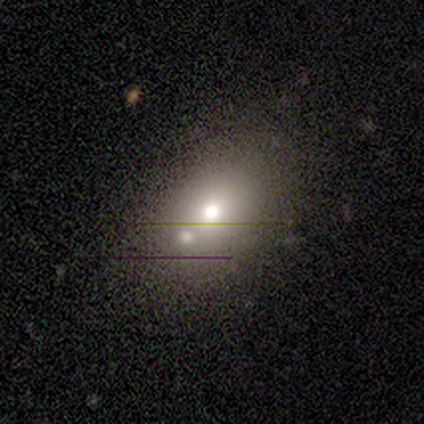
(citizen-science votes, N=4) A featured or disk galaxy (75%) with no bar (100%), no spiral arms (100%) and a large central bulge (50%, tied with moderate). Merging: none (50%, tied with merger).